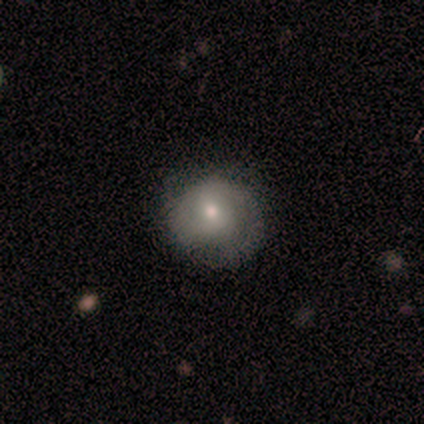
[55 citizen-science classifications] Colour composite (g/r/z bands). It shows a smooth galaxy with no disk features (55%) that is round (97%). Merging: none (66%).